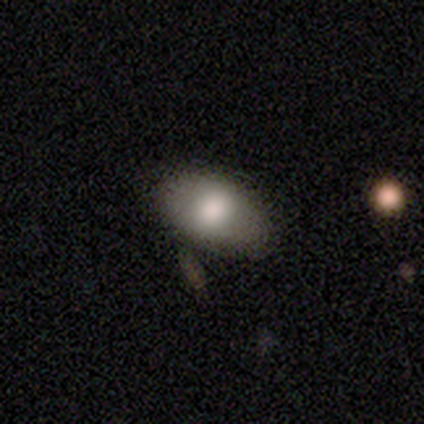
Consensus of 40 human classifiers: smooth 75%, featured or disk 18%, star or artifact 8%. Down the decision tree: how rounded — in between (90%); merging — none (89%).